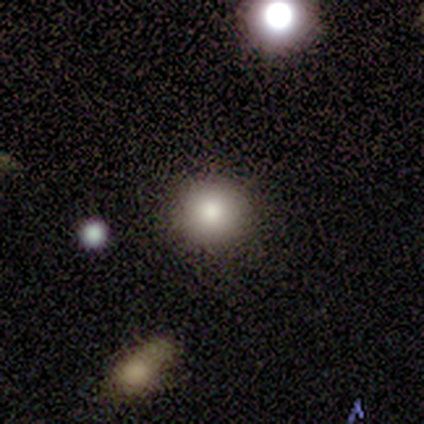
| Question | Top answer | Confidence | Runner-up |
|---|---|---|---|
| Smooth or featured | smooth | 100% | — |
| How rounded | round | 100% | — |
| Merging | minor disturbance | 100% | — |